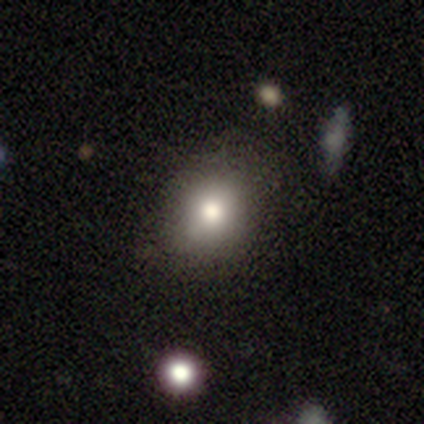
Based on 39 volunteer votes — Smooth or featured? 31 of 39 (79%) said smooth. How rounded? 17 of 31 (55%) said round. Merging? 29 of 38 (76%) said none.